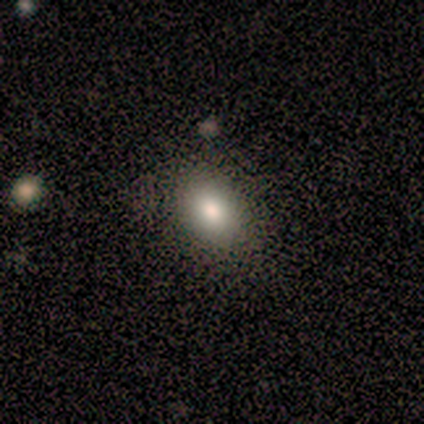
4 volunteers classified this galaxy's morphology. smooth_or_featured: smooth (p=0.75) [alt: star or artifact p=0.25]
how_rounded: in between (p=0.67) [alt: round p=0.33]
merging: none (p=1.00)